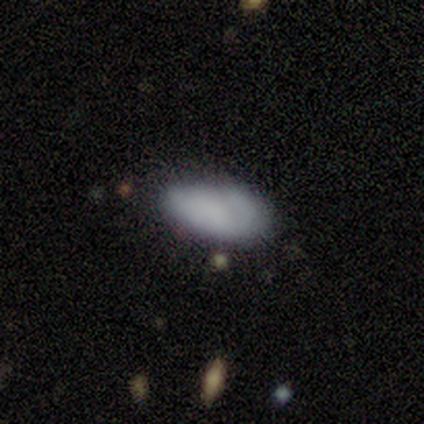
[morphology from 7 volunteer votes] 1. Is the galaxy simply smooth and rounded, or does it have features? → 86% smooth, 14% star or artifact, 0% featured or disk.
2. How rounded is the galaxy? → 100% in between, 0% round, 0% cigar-shaped.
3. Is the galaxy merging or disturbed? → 67% none, 33% minor disturbance, 0% major disturbance, 0% merger.